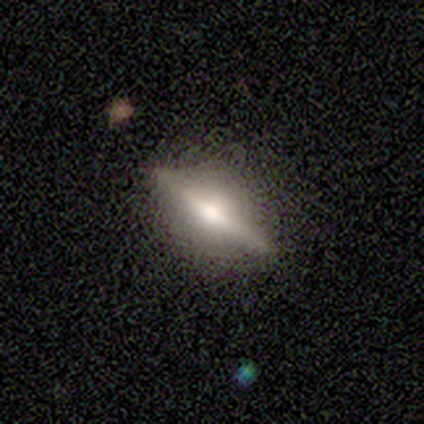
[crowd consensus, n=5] featured or disk 80%, star or artifact 20%, smooth 0%. Down the decision tree: edge-on disk — yes (100%); edge-on bulge — rounded (100%); merging — minor disturbance (50%).